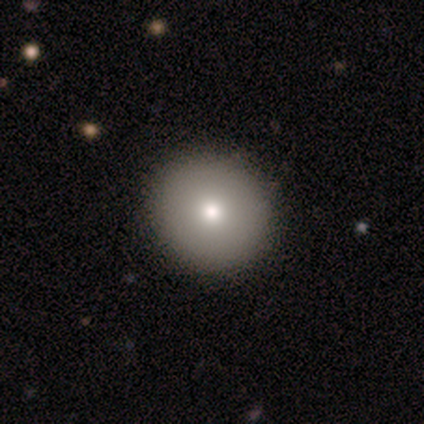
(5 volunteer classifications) Smooth or featured: smooth — 60% (featured or disk — 20%)
How rounded: round — 100%
Merging: none — 75% (minor disturbance — 25%)